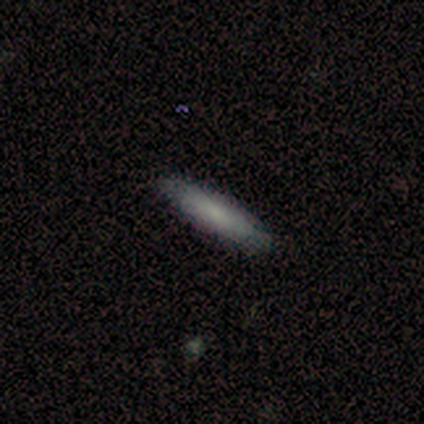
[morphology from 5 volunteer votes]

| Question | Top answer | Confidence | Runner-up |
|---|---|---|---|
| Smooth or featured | smooth | 80% | featured or disk (20%) |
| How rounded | cigar-shaped | 75% | in between (25%) |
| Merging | none | 100% | — |